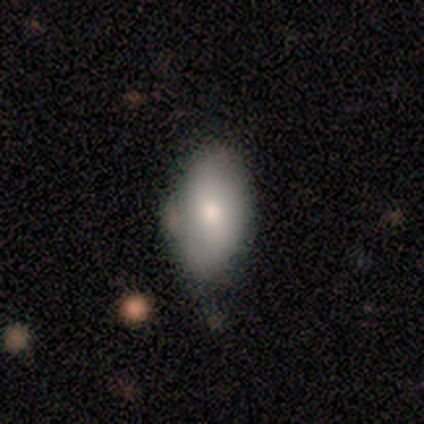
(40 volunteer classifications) This is likely a smooth galaxy (72%). How rounded: clearly in between (86%). Merging: likely none (70%).